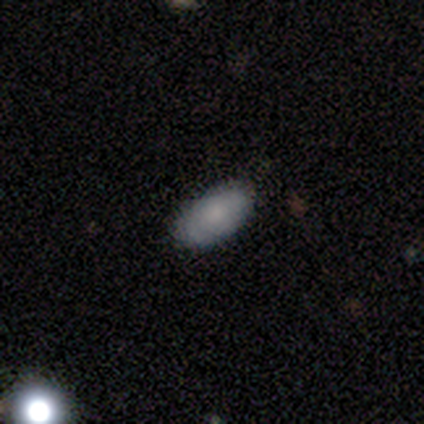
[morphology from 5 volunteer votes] Q: Smooth or featured?
A: smooth (80%); runner-up: featured or disk (20%)
Q: How rounded?
A: in between (75%); runner-up: round (25%)
Q: Merging?
A: none (100%)